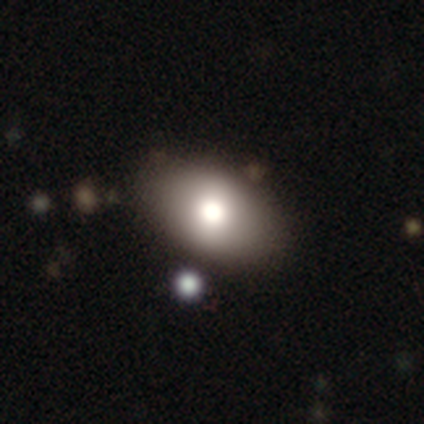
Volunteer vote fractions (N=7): smooth-or-featured: featured or disk: 43% | smooth: 29% | star or artifact: 29%
  disk-edge-on: no: 100% | yes: 0%
    bar: no: 67% | weak: 33% | strong: 0%
    has-spiral-arms: no: 100% | yes: 0%
    bulge-size: moderate: 67% | large: 33% | dominant: 0% | small: 0% | none: 0%
  merging: none: 80% | minor disturbance: 20% | major disturbance: 0% | merger: 0%